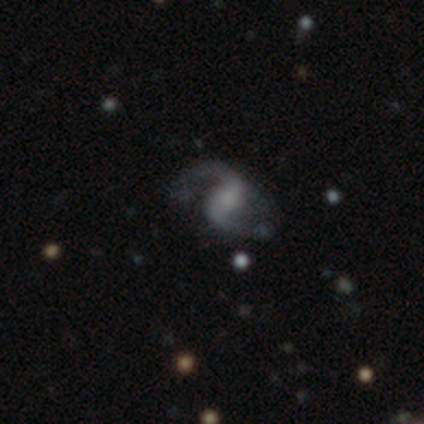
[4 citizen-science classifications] Smooth or featured? 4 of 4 (100%) said featured or disk. Edge-on disk? 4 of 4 (100%) said no. Bar? 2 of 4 (50%) said weak. Spiral arms? 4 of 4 (100%) said yes. Spiral winding? 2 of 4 (50%, tied with loose) said medium. Spiral arm count? 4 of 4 (100%) said 2. Bulge size? 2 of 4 (50%) said small. Merging? 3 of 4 (75%) said none.